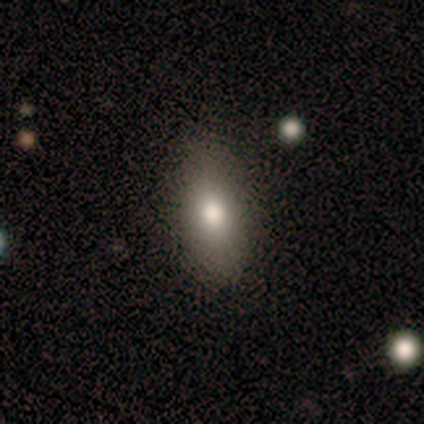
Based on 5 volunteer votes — Smooth or featured?
  - smooth: 80% *
  - featured or disk: 20%
  - star or artifact: 0%
How rounded?
  - in between: 75% *
  - cigar-shaped: 25%
  - round: 0%
Merging?
  - none: 40% * (tied)
  - minor disturbance: 40% * (tied)
  - major disturbance: 20%
  - merger: 0%